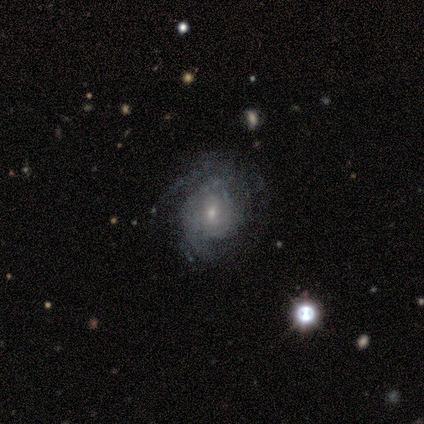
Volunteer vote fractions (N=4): This appears to be a featured or disk galaxy (75%) with no bar (100%), 2 (33%, tied with 3 and can't tell) tight (33%, tied with medium and loose) spiral arms (100%) and a small central bulge (100%). Merging: none (75%).